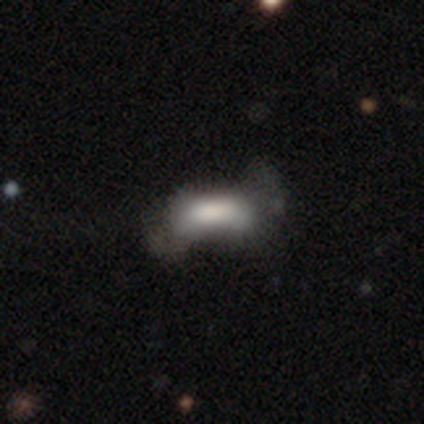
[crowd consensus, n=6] Smooth or featured: smooth — 67% (featured or disk — 33%)
How rounded: in between — 100%
Merging: none — 50% (minor disturbance — 33%)